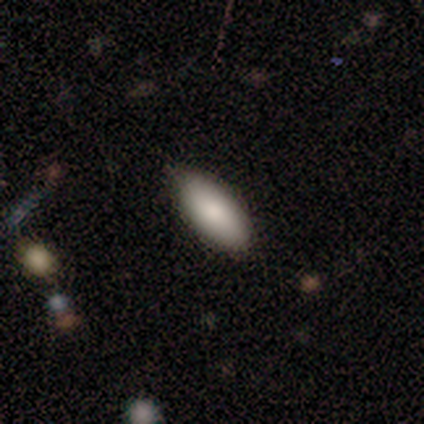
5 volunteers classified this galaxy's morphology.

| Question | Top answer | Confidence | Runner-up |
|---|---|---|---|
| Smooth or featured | smooth | 80% | star or artifact (20%) |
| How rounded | in between | 75% | cigar-shaped (25%) |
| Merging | none | 100% | — |